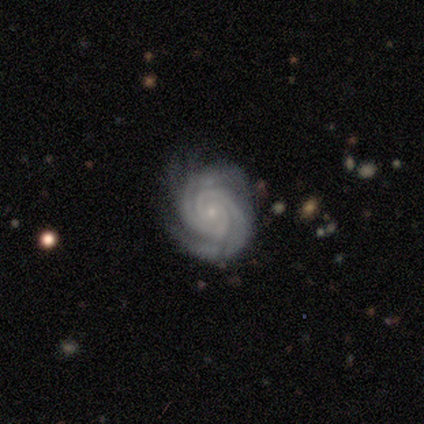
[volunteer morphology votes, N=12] smooth-or-featured: featured or disk: 100% | smooth: 0% | star or artifact: 0%
  disk-edge-on: no: 100% | yes: 0%
    bar: no: 92% | weak: 8% | strong: 0%
    has-spiral-arms: yes: 100% | no: 0%
      spiral-winding: tight: 92% | medium: 8% | loose: 0%
      spiral-arm-count: 2: 67% | 3: 17% | 4: 17% | 1: 0% | more than 4: 0% | can't tell: 0%
    bulge-size: small: 92% | large: 8% | dominant: 0% | moderate: 0% | none: 0%
  merging: none: 67% | minor disturbance: 25% | major disturbance: 8% | merger: 0%